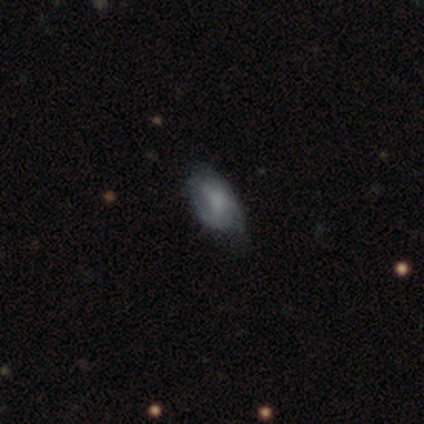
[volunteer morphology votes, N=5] This appears to be a smooth galaxy with no disk features (80%) that is in between round and cigar-shaped (100%). Merging: minor disturbance (80%).